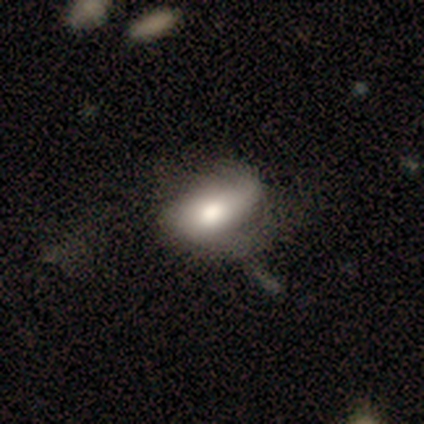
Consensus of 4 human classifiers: A smooth galaxy with no disk features (50%, tied with featured or disk) that is in between round and cigar-shaped (100%). Merging: minor disturbance (50%).